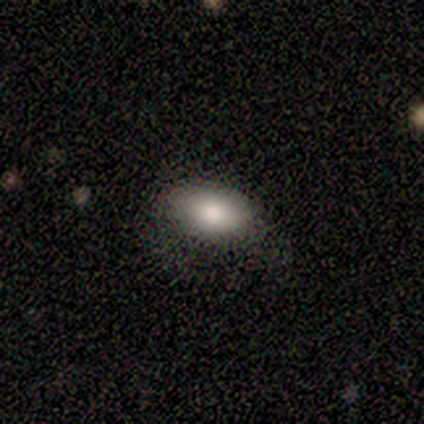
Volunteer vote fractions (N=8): Smooth or featured?
  - smooth: 100% *
  - featured or disk: 0%
  - star or artifact: 0%
How rounded?
  - in between: 88% *
  - round: 12%
  - cigar-shaped: 0%
Merging?
  - none: 75% *
  - minor disturbance: 12%
  - major disturbance: 12%
  - merger: 0%